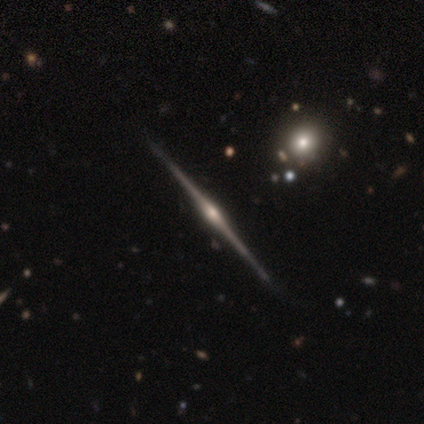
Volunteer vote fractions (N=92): Q: Smooth or featured?
A: featured or disk (89%); runner-up: star or artifact (7%)
Q: Edge-on disk?
A: yes (100%)
Q: Edge-on bulge?
A: rounded (91%); runner-up: boxy (5%)
Q: Merging?
A: none (95%); runner-up: minor disturbance (2%)